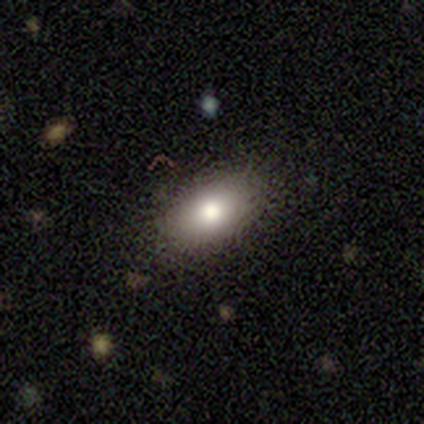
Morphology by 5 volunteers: Q: Smooth or featured?
A: smooth (80%); runner-up: star or artifact (20%)
Q: How rounded?
A: in between (100%)
Q: Merging?
A: none (100%)